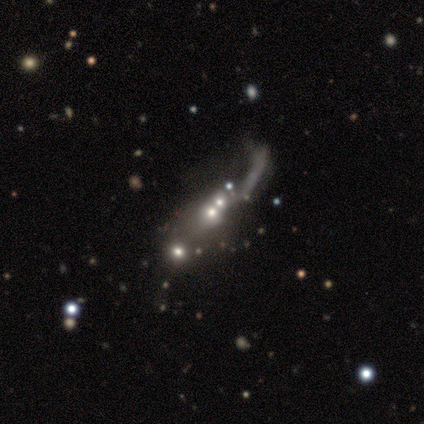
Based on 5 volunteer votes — Smooth or featured? featured or disk (60%)
Edge-on disk? no (100%)
Bar? no (67%)
Spiral arms? yes (67%)
Spiral winding? loose (100%)
Spiral arm count? 1 (100%)
Bulge size? small (67%)
Merging? merger (100%)